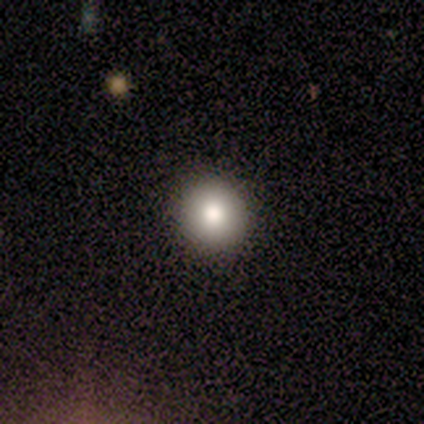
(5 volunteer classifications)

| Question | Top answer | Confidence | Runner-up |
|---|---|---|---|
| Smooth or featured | smooth | 60% | star or artifact (40%) |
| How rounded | round | 100% | — |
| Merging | none | 67% | minor disturbance (33%) |